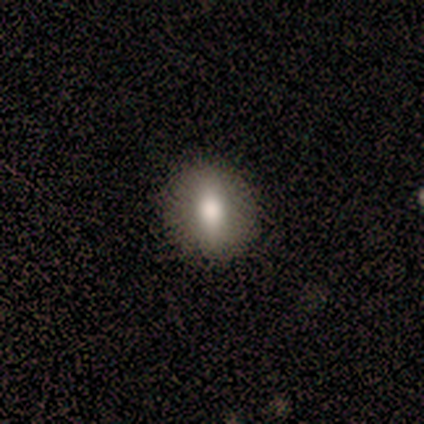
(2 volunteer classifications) This is clearly a smooth galaxy (100%). How rounded: possibly round (50%, tied with in between). Merging: clearly none (100%).